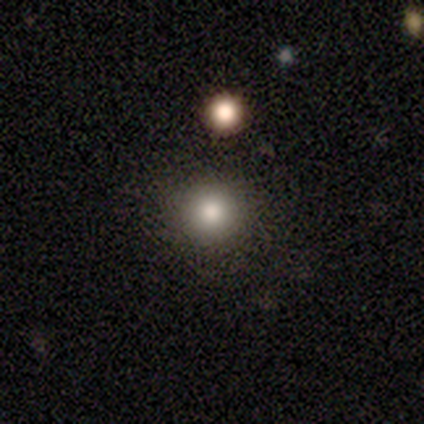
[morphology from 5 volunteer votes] Smooth or featured: smooth — 60% (featured or disk — 20%)
How rounded: round — 100%
Merging: none — 100%